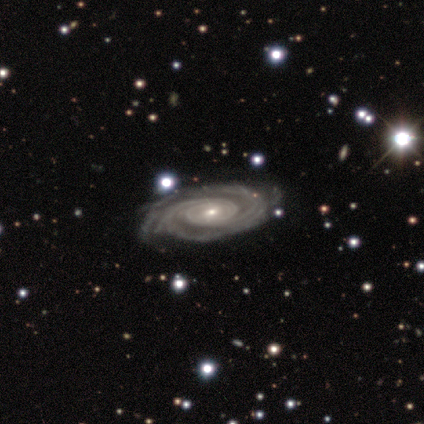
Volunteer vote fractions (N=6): Overall: featured or disk (100%). Edge-on disk: no (100%). Bar: no (50%; weak 33%). Spiral arms: yes (100%). Spiral arm count: 2 (67%). Spiral winding: tight (83%). Bulge size: small (100%). Merging: none (100%).